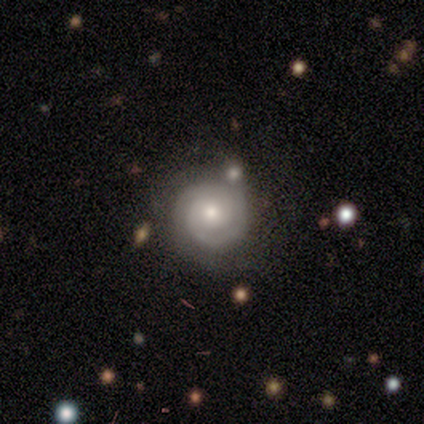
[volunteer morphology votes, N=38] Smooth or featured?
  - featured or disk: 84% *
  - smooth: 13%
  - star or artifact: 3%
Edge-on disk?
  - no: 100% *
  - yes: 0%
Bar?
  - no: 75% *
  - weak: 22%
  - strong: 3%
Spiral arms?
  - yes: 97% *
  - no: 3%
Spiral winding?
  - tight: 65% *
  - medium: 26%
  - loose: 10%
Spiral arm count?
  - 2: 71% *
  - can't tell: 13%
  - 1: 10%
  - 3: 3%
  - 4: 3%
  - more than 4: 0%
Bulge size?
  - moderate: 72% *
  - small: 22%
  - dominant: 3%
  - large: 3%
  - none: 0%
Merging?
  - none: 59% *
  - merger: 11%
  - minor disturbance: 3%
  - major disturbance: 3%